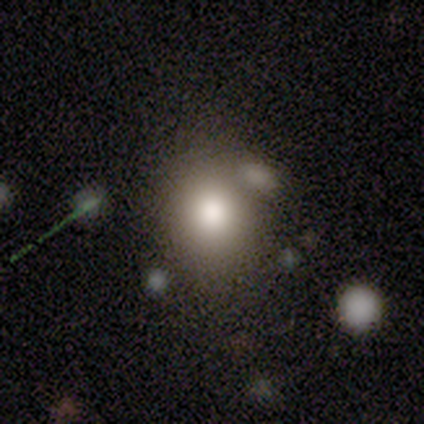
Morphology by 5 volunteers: Volunteers were most divided on "smooth or featured": smooth: 80%, star or artifact: 20%, featured or disk: 0%. More confident: how rounded — round (100%); merging — none (100%).